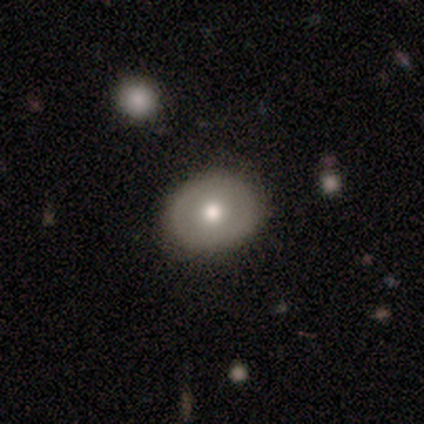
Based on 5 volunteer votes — A smooth galaxy with no disk features (80%) that is round (50%, tied with in between). Merging: none (100%).